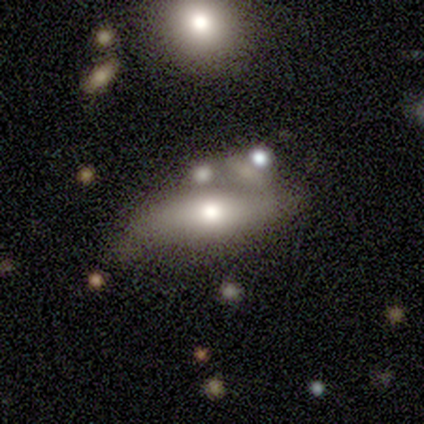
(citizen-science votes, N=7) A featured or disk galaxy (57%) viewed edge-on (50%, tied with no) with a rounded central bulge (100%).

Vote fractions:
- Smooth or featured? featured or disk: 57% / smooth: 43% / star or artifact: 0%
- Edge-on disk? yes: 50% (tied) / no: 50% (tied)
- Edge-on bulge? rounded: 100% / boxy: 0% / none: 0%
- Merging? major disturbance: 43% / none: 29% / merger: 29% / minor disturbance: 0%